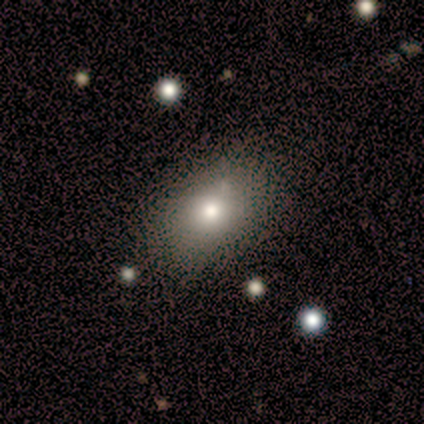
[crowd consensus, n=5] Smooth or featured?
  - smooth: 80% *
  - featured or disk: 20%
  - star or artifact: 0%
How rounded?
  - in between: 100% *
  - round: 0%
  - cigar-shaped: 0%
Merging?
  - none: 80% *
  - minor disturbance: 20%
  - major disturbance: 0%
  - merger: 0%